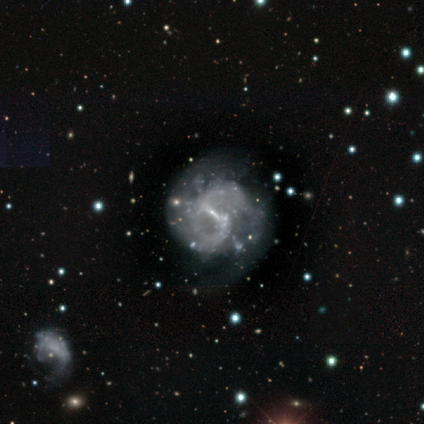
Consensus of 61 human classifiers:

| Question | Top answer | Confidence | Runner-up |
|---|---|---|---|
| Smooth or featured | featured or disk | 89% | star or artifact (8%) |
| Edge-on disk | no | 96% | yes (4%) |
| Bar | weak | 56% | strong (40%) |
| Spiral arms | yes | 85% | no (15%) |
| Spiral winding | medium | 61% | loose (23%) |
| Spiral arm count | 2 | 70% | can't tell (25%) |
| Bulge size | small | 87% | none (10%) |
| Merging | none | 57% | major disturbance (29%) |